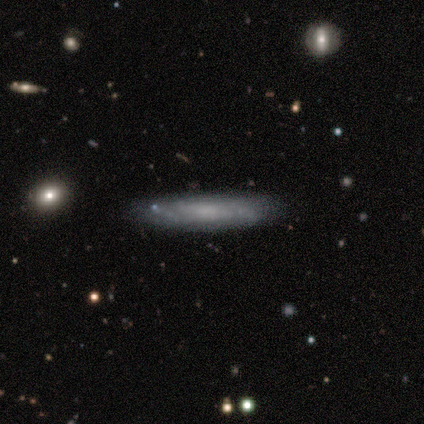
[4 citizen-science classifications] Smooth or featured: smooth — 75% (featured or disk — 25%)
How rounded: cigar-shaped — 100%
Merging: none — 100%